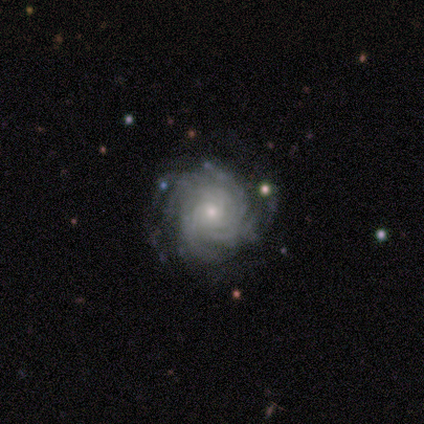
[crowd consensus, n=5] Smooth or featured? featured or disk (100%)
Edge-on disk? no (100%)
Bar? no (100%)
Spiral arms? yes (100%)
Spiral winding? tight (60%)
Spiral arm count? 4 (40%, tied with can't tell)
Bulge size? small (80%)
Merging? none (80%)